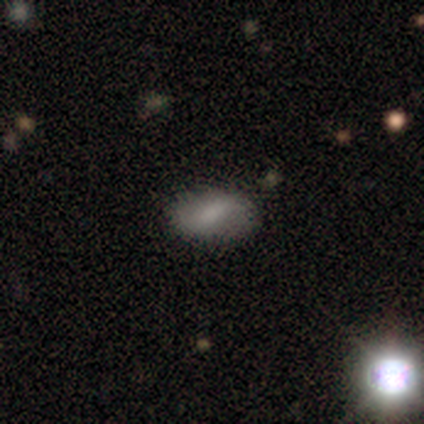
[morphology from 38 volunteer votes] type=smooth (58%); roundness=in between (95%); merging=none (82%).